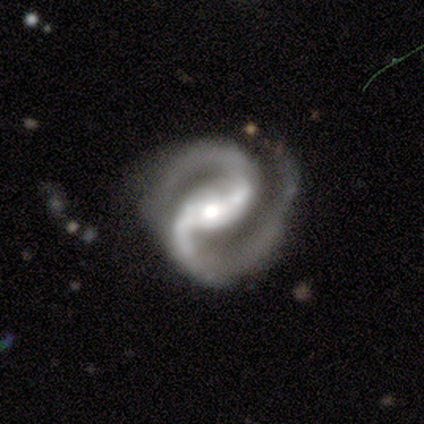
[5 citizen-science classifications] smooth-or-featured: featured or disk: 100% | smooth: 0% | star or artifact: 0%
  disk-edge-on: no: 80% | yes: 20%
    bar: strong: 50% (tied) | weak: 50% (tied) | no: 0%
    has-spiral-arms: yes: 100% | no: 0%
      spiral-winding: medium: 100% | tight: 0% | loose: 0%
      spiral-arm-count: 2: 100% | 1: 0% | 3: 0% | 4: 0% | more than 4: 0% | can't tell: 0%
    bulge-size: moderate: 75% | small: 25% | dominant: 0% | large: 0% | none: 0%
  merging: none: 60% | minor disturbance: 20% | major disturbance: 20% | merger: 0%